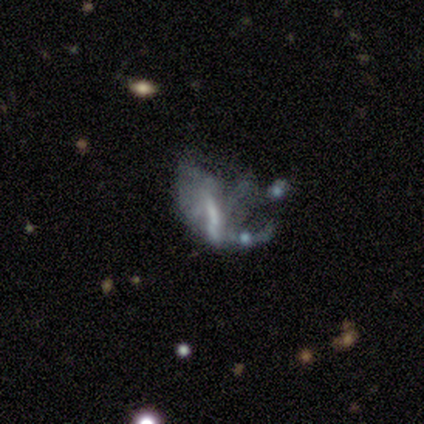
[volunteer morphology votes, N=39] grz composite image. It shows a featured or disk galaxy (64%) with no bar (54%), no spiral arms (62%) and no central bulge (54%). Merging: major disturbance (58%).